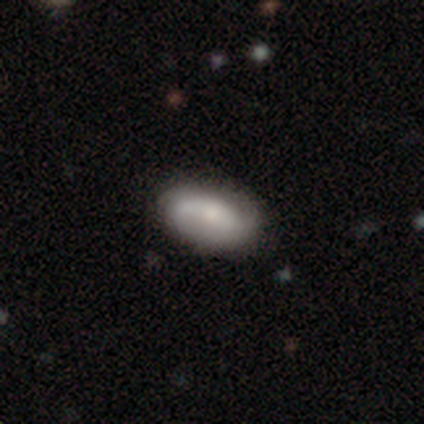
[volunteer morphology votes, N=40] Smooth or featured: featured or disk — 50% (smooth — 48%)
Edge-on disk: no — 95% (yes — 5%)
Bar: no — 58% (weak — 26%)
Spiral arms: yes — 84% (no — 16%)
Spiral winding: loose — 56% (medium — 38%)
Spiral arm count: 2 — 69% (can't tell — 19%)
Bulge size: moderate — 53% (small — 37%)
Merging: none — 64% (minor disturbance — 15%)